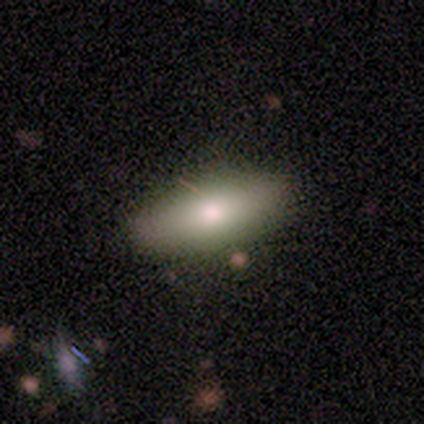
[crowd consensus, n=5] smooth-or-featured: smooth: 80% | featured or disk: 20% | star or artifact: 0%
  how-rounded: cigar-shaped: 75% | in between: 25% | round: 0%
  merging: none: 80% | minor disturbance: 20% | major disturbance: 0% | merger: 0%